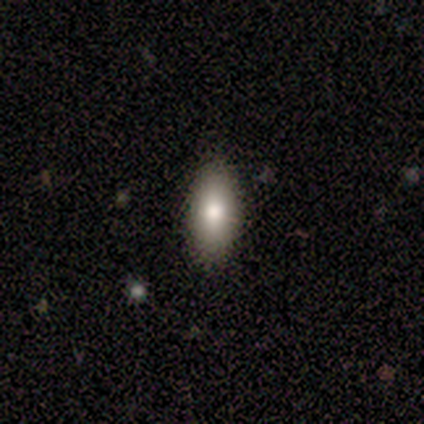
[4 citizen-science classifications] smooth-or-featured: smooth: 50% (tied) | featured or disk: 50% (tied) | star or artifact: 0%
  how-rounded: in between: 100% | round: 0% | cigar-shaped: 0%
  merging: none: 75% | major disturbance: 25% | minor disturbance: 0% | merger: 0%